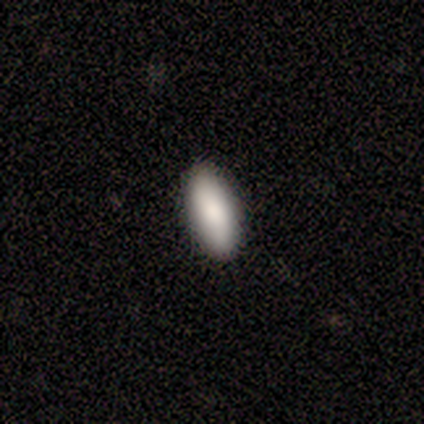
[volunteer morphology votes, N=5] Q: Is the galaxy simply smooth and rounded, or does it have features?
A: smooth — 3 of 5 (60%).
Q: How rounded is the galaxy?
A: in between — 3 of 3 (100%).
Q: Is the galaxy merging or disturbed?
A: none — 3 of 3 (100%).